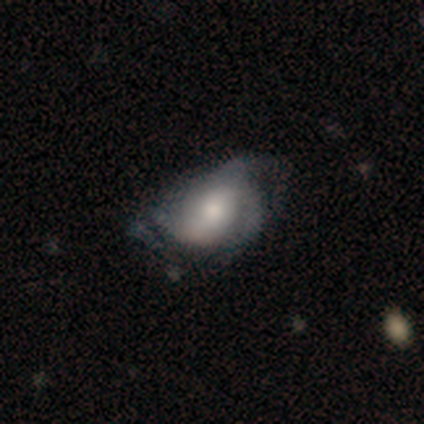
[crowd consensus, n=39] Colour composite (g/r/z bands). It shows a featured or disk galaxy (54%) with no bar (55%), 3 (35%) medium (47%) spiral arms (85%) and a moderate central bulge (55%). Merging: major disturbance (28%).